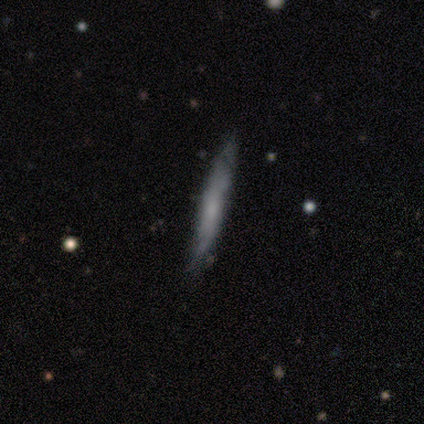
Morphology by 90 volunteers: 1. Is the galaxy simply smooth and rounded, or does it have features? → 59% smooth, 37% featured or disk, 4% star or artifact.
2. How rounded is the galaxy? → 96% cigar-shaped, 2% round, 2% in between.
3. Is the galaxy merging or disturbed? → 73% none, 20% minor disturbance, 5% major disturbance, 2% merger.